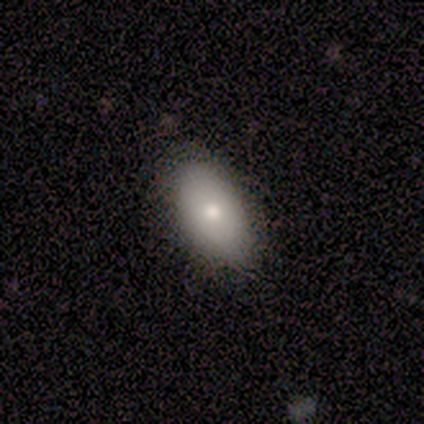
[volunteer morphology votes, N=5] Smooth or featured?
  - smooth: 80% *
  - featured or disk: 20%
  - star or artifact: 0%
How rounded?
  - in between: 100% *
  - round: 0%
  - cigar-shaped: 0%
Merging?
  - none: 80% *
  - minor disturbance: 20%
  - major disturbance: 0%
  - merger: 0%